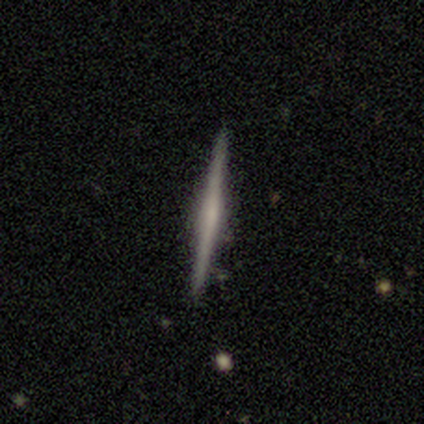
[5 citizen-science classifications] Smooth or featured? 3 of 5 (60%) said featured or disk. Edge-on disk? 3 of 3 (100%) said yes. Edge-on bulge? 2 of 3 (67%) said rounded. Merging? 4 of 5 (80%) said none.